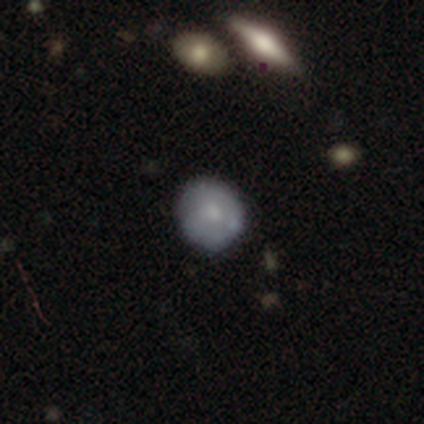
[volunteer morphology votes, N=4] This appears to be a smooth galaxy with no disk features (50%, tied with featured or disk) that is round (50%, tied with in between). Merging: none (75%).